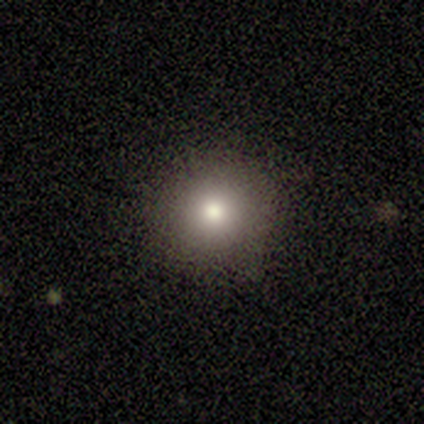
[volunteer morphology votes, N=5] Overall: smooth (60%; star or artifact 40%). How rounded: round (100%). Merging: none (100%).